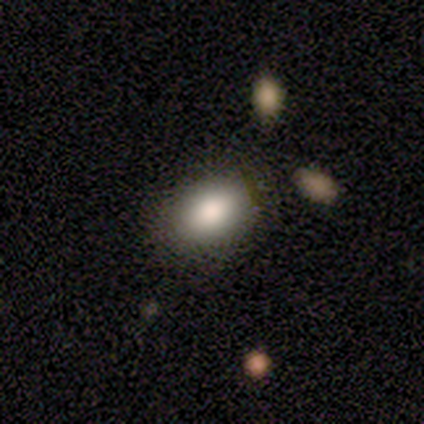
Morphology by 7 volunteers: Q: Smooth or featured?
A: smooth (71%); runner-up: featured or disk (14%)
Q: How rounded?
A: in between (80%); runner-up: round (20%)
Q: Merging?
A: none (83%); runner-up: minor disturbance (17%)